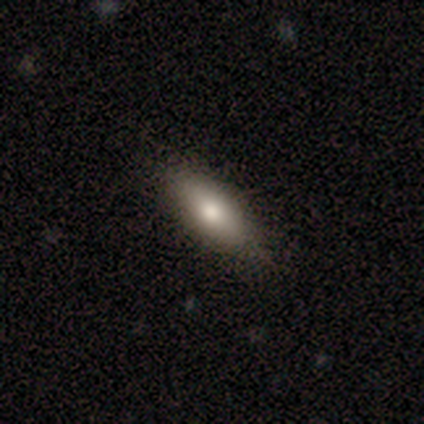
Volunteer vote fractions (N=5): Q: Smooth or featured?
A: smooth (100%)
Q: How rounded?
A: cigar-shaped (60%); runner-up: in between (40%)
Q: Merging?
A: none (60%); runner-up: minor disturbance (40%)